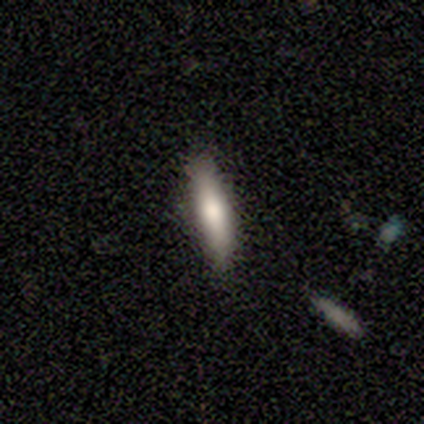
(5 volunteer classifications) smooth-or-featured: smooth: 100% | featured or disk: 0% | star or artifact: 0%
  how-rounded: cigar-shaped: 60% | in between: 40% | round: 0%
  merging: none: 80% | minor disturbance: 20% | major disturbance: 0% | merger: 0%